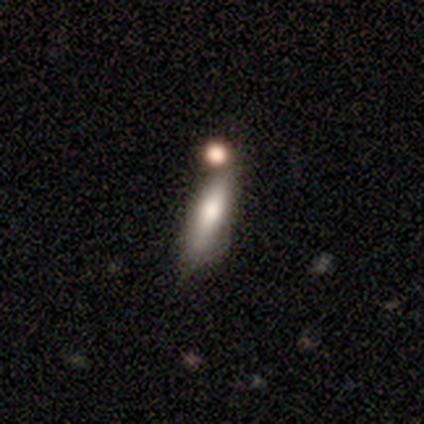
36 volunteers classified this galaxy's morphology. Q: Smooth or featured?
A: smooth (50%); runner-up: featured or disk (47%)
Q: How rounded?
A: cigar-shaped (67%); runner-up: in between (33%)
Q: Merging?
A: none (54%); runner-up: minor disturbance (26%)